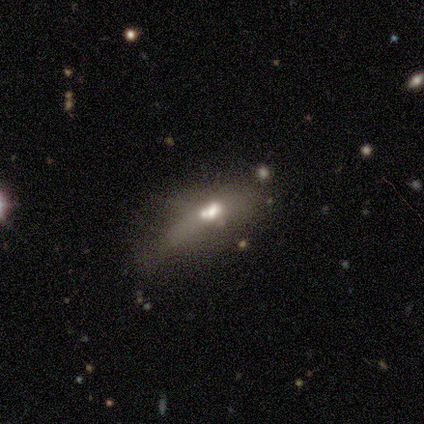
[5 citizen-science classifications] smooth_or_featured: featured or disk (p=0.80) [alt: smooth p=0.20]
disk_edge_on: yes (p=0.50) [tied with: no p=0.50]
edge_on_bulge: rounded (p=1.00)
merging: minor disturbance (p=0.60) [alt: none p=0.20]